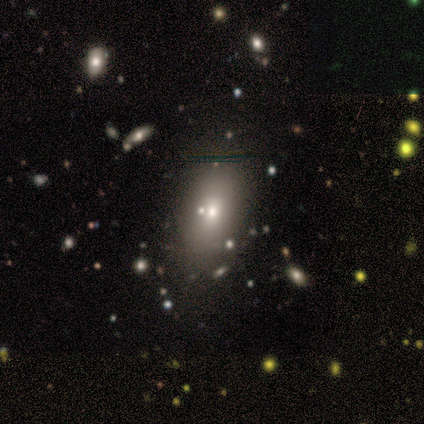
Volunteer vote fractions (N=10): Smooth or featured: smooth — 50% (star or artifact — 30%)
How rounded: in between — 80% (cigar-shaped — 20%)
Merging: minor disturbance — 57% (none — 29%)